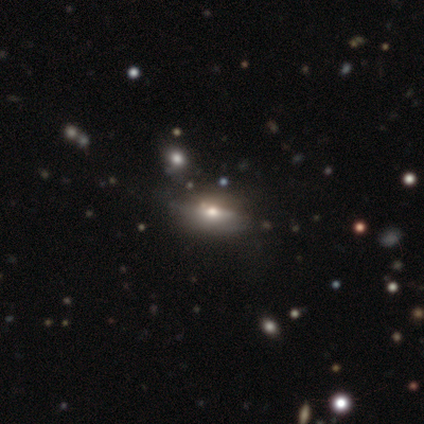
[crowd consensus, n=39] smooth-or-featured: featured or disk: 49% | smooth: 38% | star or artifact: 13%
  disk-edge-on: yes: 74% | no: 26%
    edge-on-bulge: rounded: 100% | boxy: 0% | none: 0%
  merging: none: 76% | minor disturbance: 18% | major disturbance: 6% | merger: 0%